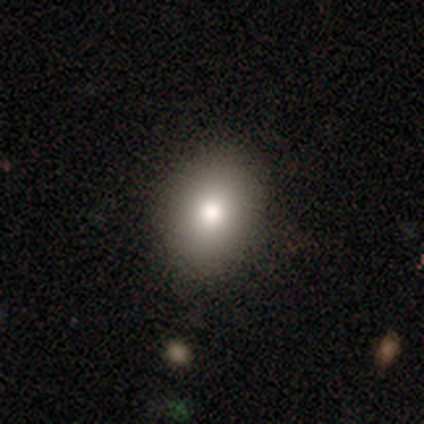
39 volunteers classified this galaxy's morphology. smooth 79%, featured or disk 18%, star or artifact 3%. Down the decision tree: how rounded — in between (55%); merging — none (87%).